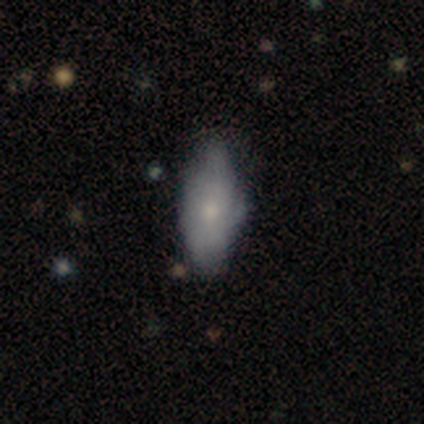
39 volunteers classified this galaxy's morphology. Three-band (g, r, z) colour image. It shows a smooth galaxy with no disk features (69%) that is in between round and cigar-shaped (89%). Merging: minor disturbance (46%).